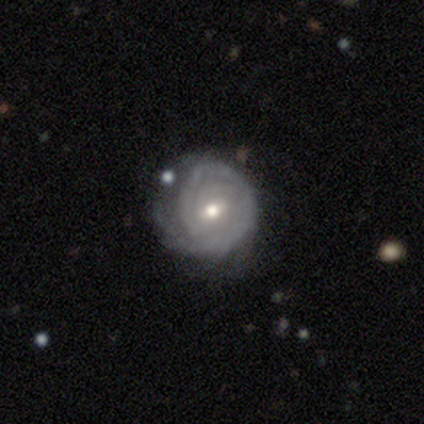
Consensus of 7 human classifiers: Volunteers were most divided on "bar": weak: 67%, no: 33%, strong: 0%. More confident: smooth or featured — featured or disk (100%); spiral arms — yes (100%); edge-on disk — no (86%); merging — none (71%); bulge size — moderate (67%); spiral winding — tight (67%); spiral arm count — can't tell (67%).